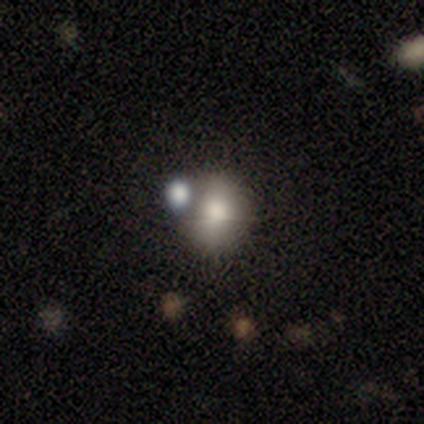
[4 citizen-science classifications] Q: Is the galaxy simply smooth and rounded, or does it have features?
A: smooth — 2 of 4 (50%, tied with featured or disk).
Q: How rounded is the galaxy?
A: round — 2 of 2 (100%).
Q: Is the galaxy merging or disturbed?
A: minor disturbance — 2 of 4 (50%).